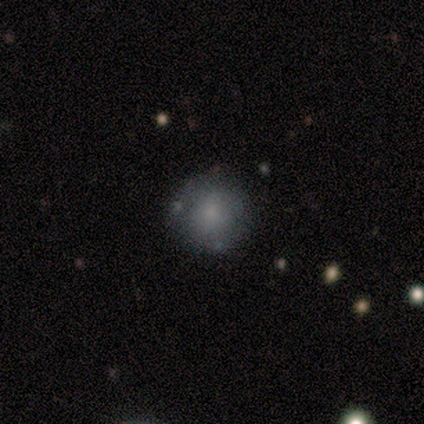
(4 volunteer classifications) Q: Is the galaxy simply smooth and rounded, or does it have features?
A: smooth — 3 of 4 (75%).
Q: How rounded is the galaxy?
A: round — 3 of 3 (100%).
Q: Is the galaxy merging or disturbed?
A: none — 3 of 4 (75%).